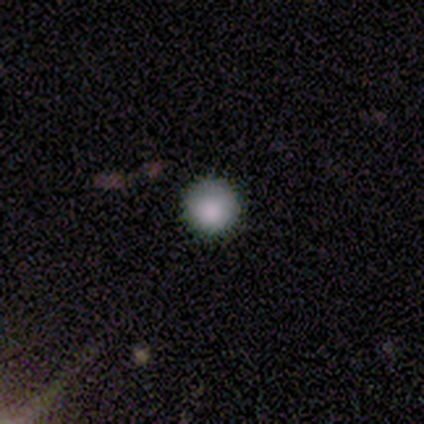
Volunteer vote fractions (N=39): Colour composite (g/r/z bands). It shows a smooth galaxy with no disk features (87%) that is round (100%). Merging: none (92%).